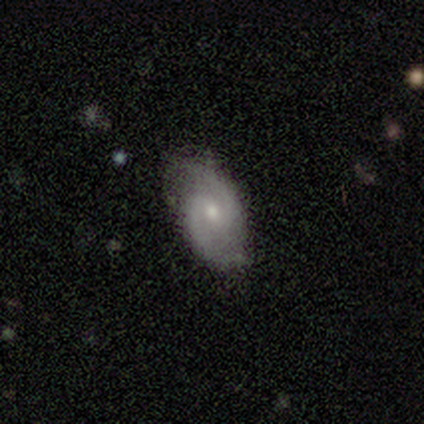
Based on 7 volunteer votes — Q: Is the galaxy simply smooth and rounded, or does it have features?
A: featured or disk — 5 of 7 (71%).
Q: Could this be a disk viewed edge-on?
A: no — 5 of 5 (100%).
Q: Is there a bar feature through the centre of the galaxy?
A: weak — 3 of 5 (60%).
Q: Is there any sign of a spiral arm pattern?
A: yes — 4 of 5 (80%).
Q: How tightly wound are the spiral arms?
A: loose — 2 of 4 (50%).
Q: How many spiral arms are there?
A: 2 — 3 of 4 (75%).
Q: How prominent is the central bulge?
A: small — 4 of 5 (80%).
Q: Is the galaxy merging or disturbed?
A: none — 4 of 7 (57%).